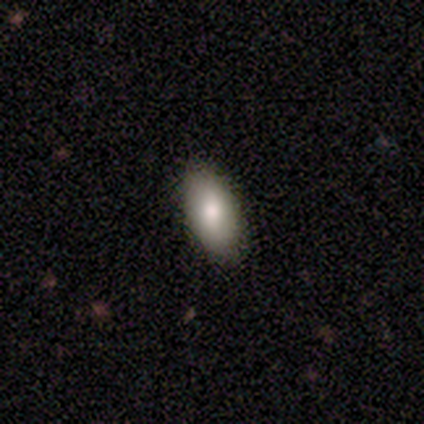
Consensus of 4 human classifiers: A smooth galaxy with no disk features (75%) that is in between round and cigar-shaped (100%).

Vote fractions:
- Smooth or featured? smooth: 75% / star or artifact: 25% / featured or disk: 0%
- How rounded? in between: 100% / round: 0% / cigar-shaped: 0%
- Merging? none: 100% / minor disturbance: 0% / major disturbance: 0% / merger: 0%